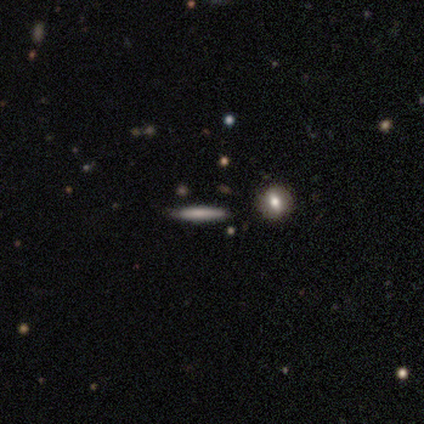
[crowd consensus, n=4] Smooth or featured? 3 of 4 (75%) said smooth. How rounded? 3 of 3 (100%) said cigar-shaped. Merging? 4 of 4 (100%) said none.